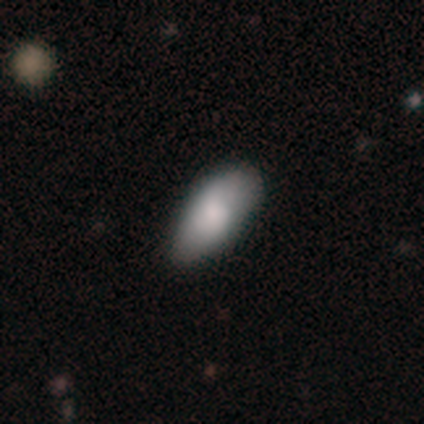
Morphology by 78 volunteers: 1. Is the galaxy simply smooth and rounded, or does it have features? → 78% smooth, 17% featured or disk, 5% star or artifact.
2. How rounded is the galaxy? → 100% in between, 0% round, 0% cigar-shaped.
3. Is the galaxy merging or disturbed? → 34% none, 14% minor disturbance, 1% major disturbance, 1% merger.